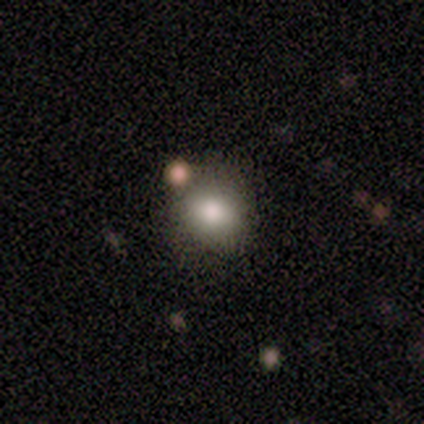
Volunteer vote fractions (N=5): Overall: smooth (80%). How rounded: round (75%). Merging: none (100%).